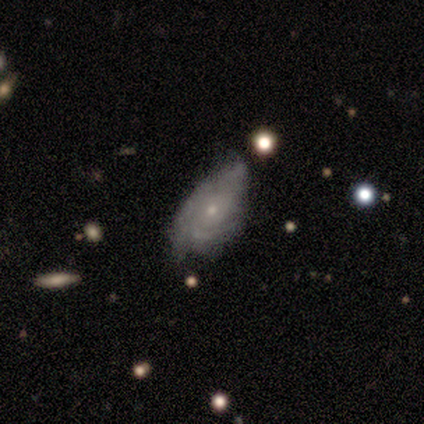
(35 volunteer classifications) smooth_or_featured: featured or disk (p=0.74) [alt: star or artifact p=0.14]
disk_edge_on: no (p=1.00)
bar: no (p=1.00)
has_spiral_arms: yes (p=0.85) [alt: no p=0.15]
spiral_winding: tight (p=0.50) [alt: medium p=0.45]
spiral_arm_count: can't tell (p=0.45) [alt: 2 p=0.27]
bulge_size: small (p=0.69) [alt: moderate p=0.27]
merging: none (p=0.47) [tied with: minor disturbance p=0.47]